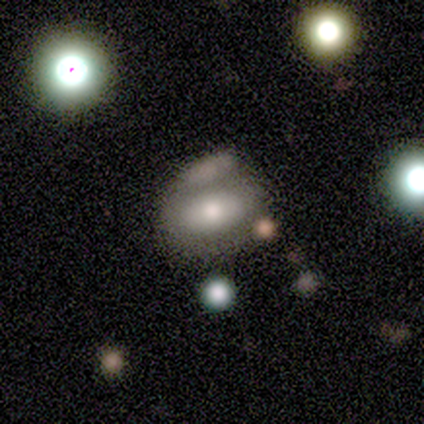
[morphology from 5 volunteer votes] Smooth or featured? smooth (80%)
How rounded? in between (75%)
Merging? merger (40%)